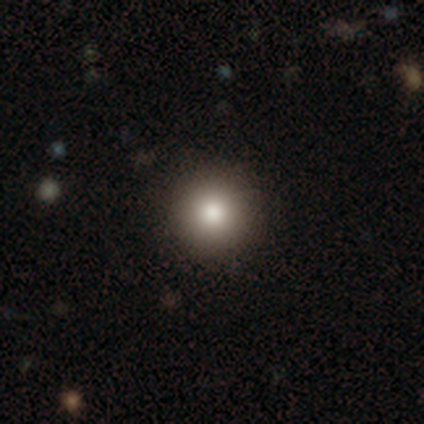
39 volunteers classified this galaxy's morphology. Smooth or featured?
  - smooth: 85% *
  - star or artifact: 13%
  - featured or disk: 3%
How rounded?
  - round: 97% *
  - cigar-shaped: 3%
  - in between: 0%
Merging?
  - none: 88% *
  - minor disturbance: 9%
  - major disturbance: 3%
  - merger: 0%